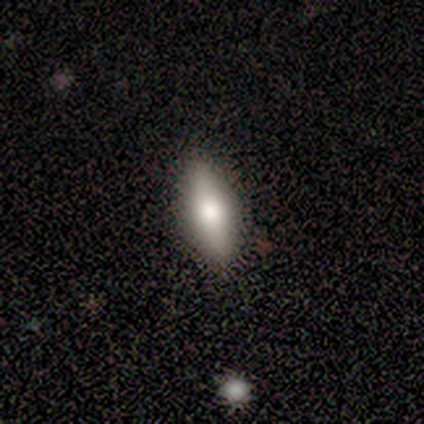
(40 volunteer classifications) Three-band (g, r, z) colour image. It shows a smooth galaxy with no disk features (42%) that is in between round and cigar-shaped (53%). Merging: none (91%).